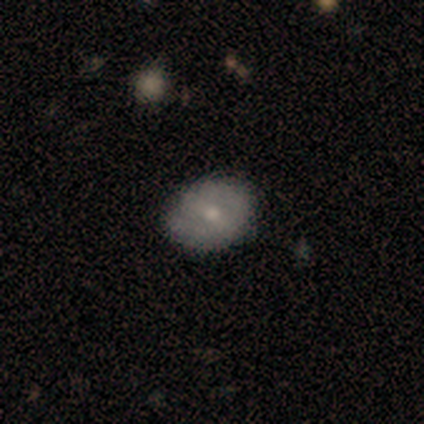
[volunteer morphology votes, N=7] Smooth or featured? 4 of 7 (57%) said smooth. How rounded? 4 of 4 (100%) said in between. Merging? 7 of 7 (100%) said none.